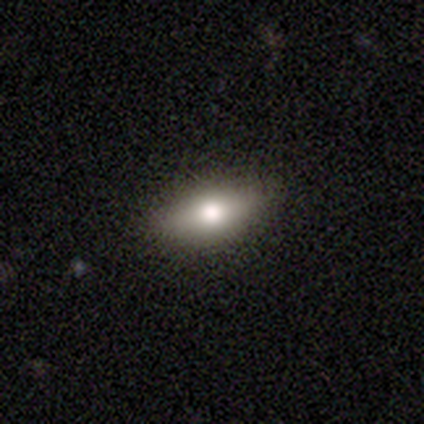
Smooth or featured? 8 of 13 (62%) said smooth. How rounded? 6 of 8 (75%) said in between. Merging? 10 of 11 (91%) said none.